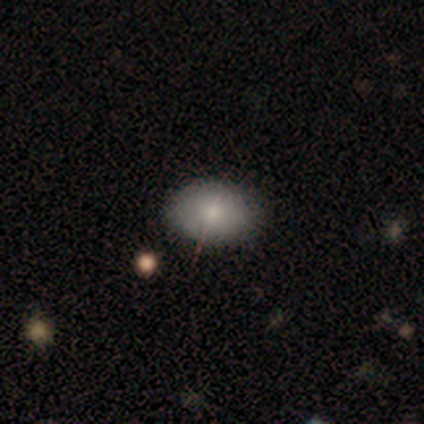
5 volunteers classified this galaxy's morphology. A smooth galaxy with no disk features (60%) that is in between round and cigar-shaped (67%). Merging: minor disturbance (75%).